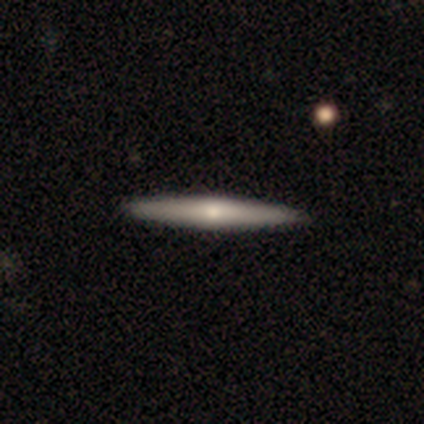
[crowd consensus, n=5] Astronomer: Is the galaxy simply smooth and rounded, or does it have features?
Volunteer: smooth — 60% (runner-up: featured or disk, 40%).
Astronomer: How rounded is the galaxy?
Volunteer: cigar-shaped — 100%.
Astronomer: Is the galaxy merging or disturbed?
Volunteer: none — 100%.